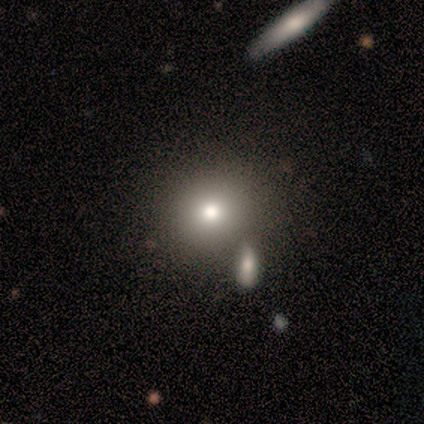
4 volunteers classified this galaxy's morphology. A smooth galaxy with no disk features (50%) that is round (50%, tied with in between).

Vote fractions:
- Smooth or featured? smooth: 50% / featured or disk: 25% / star or artifact: 25%
- How rounded? round: 50% (tied) / in between: 50% (tied) / cigar-shaped: 0%
- Merging? none: 67% / minor disturbance: 33% / major disturbance: 0% / merger: 0%